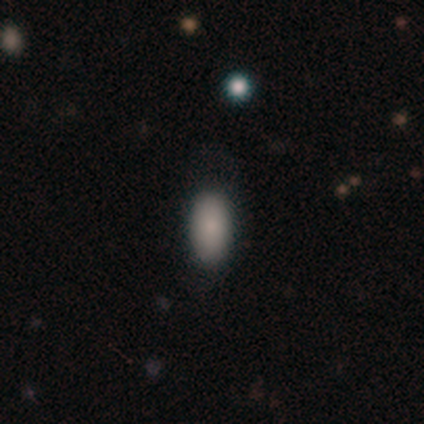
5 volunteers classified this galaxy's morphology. smooth 100%, featured or disk 0%, star or artifact 0%. Down the decision tree: how rounded — in between (80%); merging — none (100%).